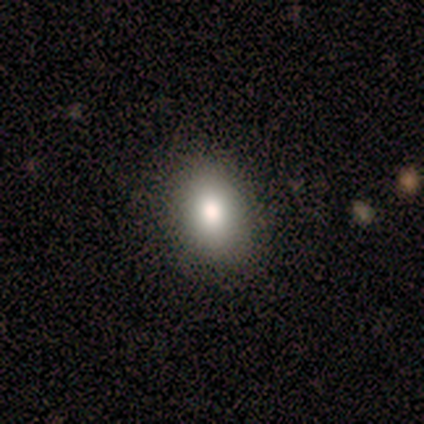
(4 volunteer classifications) Morphology: type=smooth (50%, tied with featured or disk); roundness=in between (100%); merging=none (75%).